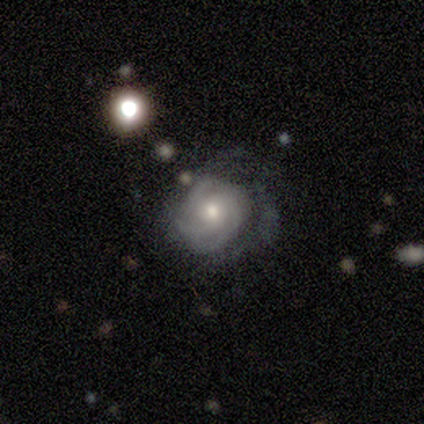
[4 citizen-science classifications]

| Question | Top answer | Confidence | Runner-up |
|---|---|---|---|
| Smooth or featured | featured or disk | 100% | — |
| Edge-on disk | no | 100% | — |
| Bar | weak | 50% | tied: no (50%) |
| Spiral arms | yes | 100% | — |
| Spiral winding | medium | 50% | tight (25%) |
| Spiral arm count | can't tell | 50% | 2 (25%) |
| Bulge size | moderate | 50% | tied: small (50%) |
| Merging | none | 50% | minor disturbance (25%) |